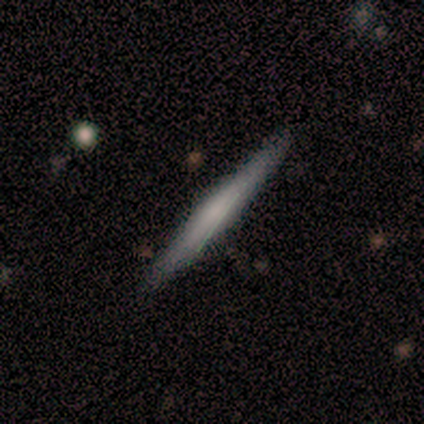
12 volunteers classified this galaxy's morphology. A featured or disk galaxy (75%) viewed edge-on (100%) with a rounded central bulge (44%). Merging: none (100%).